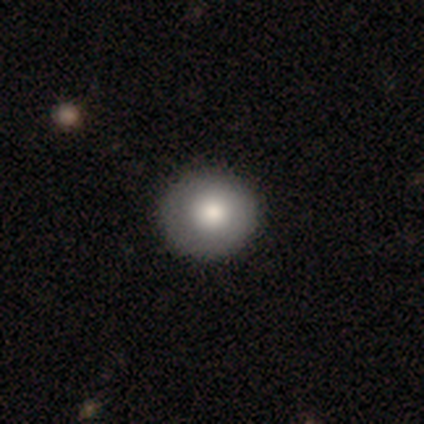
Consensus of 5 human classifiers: Smooth or featured: smooth — 40% (tied with featured or disk — 40%)
How rounded: round — 50% (tied with in between — 50%)
Merging: none — 75% (minor disturbance — 25%)